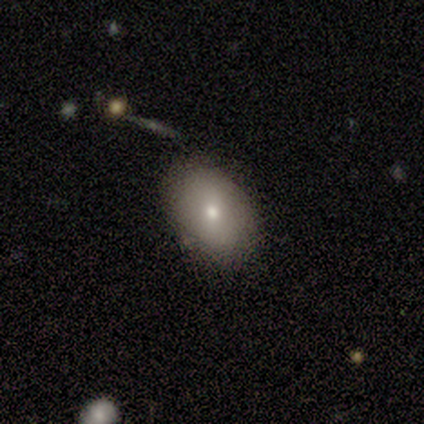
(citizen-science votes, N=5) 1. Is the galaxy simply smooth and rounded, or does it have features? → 80% smooth, 20% featured or disk, 0% star or artifact.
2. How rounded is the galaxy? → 100% in between, 0% round, 0% cigar-shaped.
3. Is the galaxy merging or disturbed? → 100% none, 0% minor disturbance, 0% major disturbance, 0% merger.